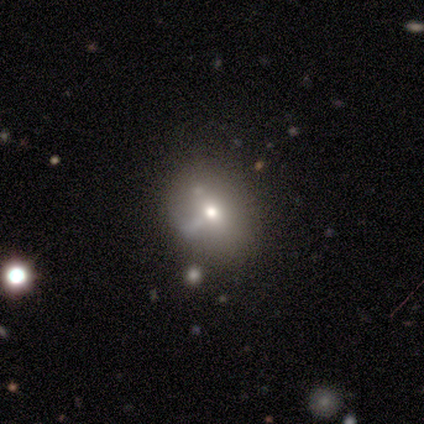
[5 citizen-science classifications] Smooth or featured: featured or disk — 60% (smooth — 20%)
Edge-on disk: no — 100%
Bar: no — 100%
Spiral arms: no — 67% (yes — 33%)
Bulge size: moderate — 100%
Merging: none — 50% (major disturbance — 25%)